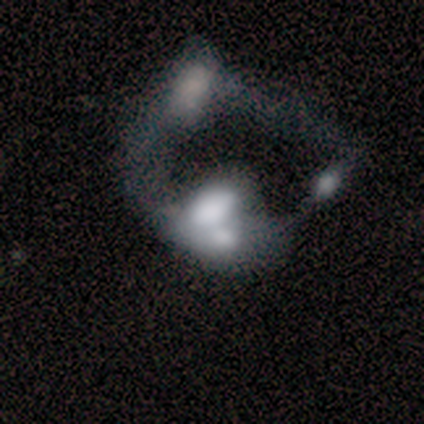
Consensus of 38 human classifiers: Morphology: type=featured or disk (53%); edge-on=no (95%); bar=no (100%); spiral arms=no (100%); bulge=none (53%); merging=merger (85%).